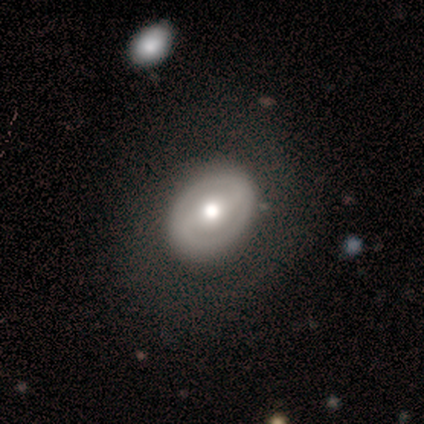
Morphology: type=featured or disk (100%); edge-on=no (100%); bar=no (100%); spiral arms=no (100%); bulge=moderate (100%); merging=none (100%).